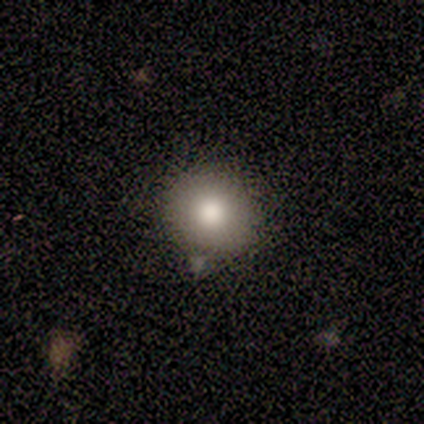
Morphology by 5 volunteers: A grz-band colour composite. It shows a smooth galaxy with no disk features (60%) that is round (100%). Merging: none (100%).